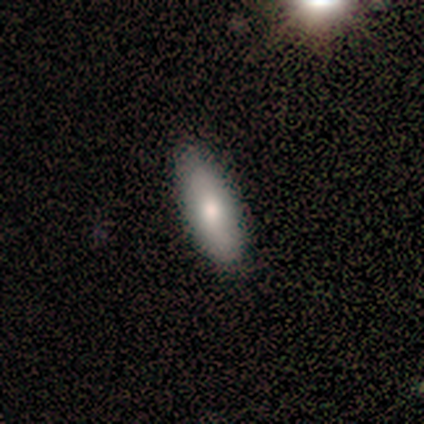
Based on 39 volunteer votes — Smooth or featured: smooth — 85% (featured or disk — 10%)
How rounded: in between — 70% (cigar-shaped — 30%)
Merging: none — 89% (minor disturbance — 8%)